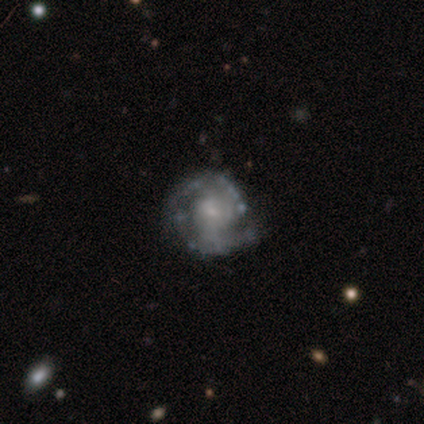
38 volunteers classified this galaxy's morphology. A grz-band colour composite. It shows a featured or disk galaxy (89%) with no bar (70%), 2 (53%) medium (67%) spiral arms (91%) and a small central bulge (67%). Merging: none (71%).